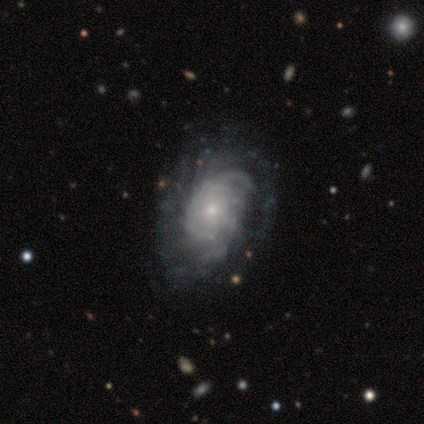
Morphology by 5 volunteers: Smooth or featured?
  - featured or disk: 80% *
  - smooth: 20%
  - star or artifact: 0%
Edge-on disk?
  - no: 100% *
  - yes: 0%
Bar?
  - no: 100% *
  - strong: 0%
  - weak: 0%
Spiral arms?
  - yes: 100% *
  - no: 0%
Spiral winding?
  - tight: 100% *
  - medium: 0%
  - loose: 0%
Spiral arm count?
  - can't tell: 75% *
  - more than 4: 25%
  - 1: 0%
  - 2: 0%
  - 3: 0%
  - 4: 0%
Bulge size?
  - small: 75% *
  - moderate: 25%
  - dominant: 0%
  - large: 0%
  - none: 0%
Merging?
  - none: 60% *
  - minor disturbance: 20%
  - merger: 20%
  - major disturbance: 0%